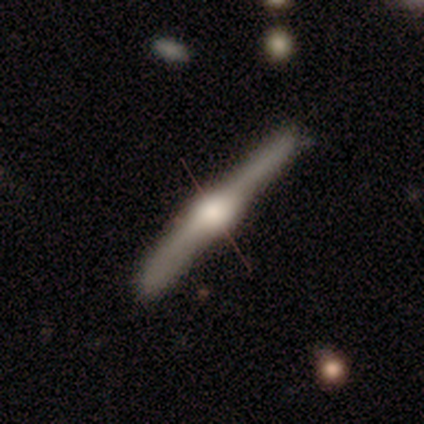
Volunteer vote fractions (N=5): Q: Smooth or featured?
A: featured or disk (80%); runner-up: smooth (20%)
Q: Edge-on disk?
A: yes (100%)
Q: Edge-on bulge?
A: rounded (100%)
Q: Merging?
A: none (100%)